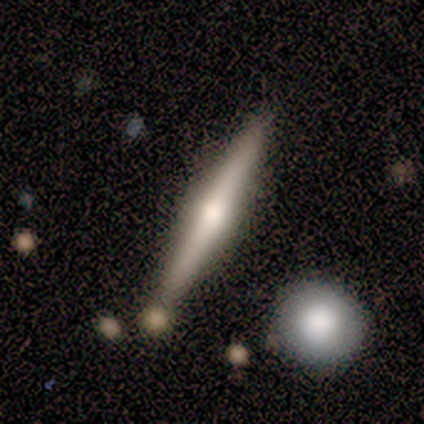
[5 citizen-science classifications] Smooth or featured: smooth — 60% (featured or disk — 40%)
How rounded: cigar-shaped — 100%
Merging: none — 100%